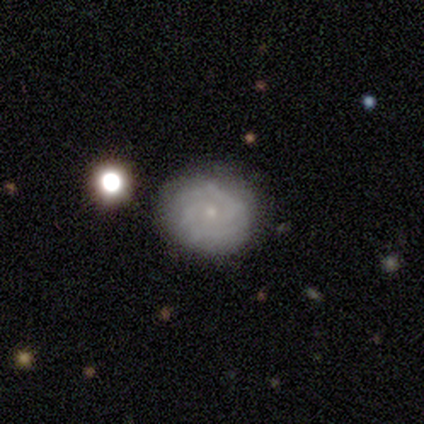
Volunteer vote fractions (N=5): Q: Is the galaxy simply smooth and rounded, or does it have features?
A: featured or disk — 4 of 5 (80%).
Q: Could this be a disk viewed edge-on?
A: no — 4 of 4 (100%).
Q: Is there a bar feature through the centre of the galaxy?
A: weak — 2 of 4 (50%, tied with no).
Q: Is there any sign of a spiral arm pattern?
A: yes — 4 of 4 (100%).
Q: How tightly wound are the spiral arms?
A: tight — 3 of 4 (75%).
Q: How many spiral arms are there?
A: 2 — 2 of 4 (50%).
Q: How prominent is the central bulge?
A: small — 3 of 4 (75%).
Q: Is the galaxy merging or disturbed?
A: none — 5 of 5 (100%).